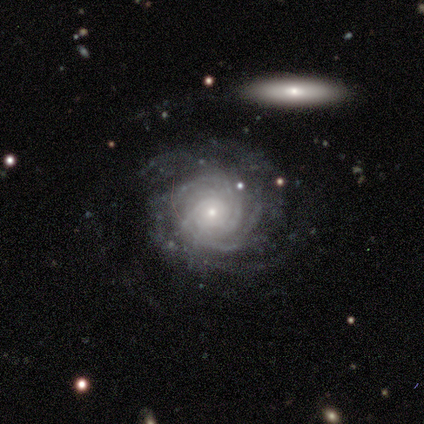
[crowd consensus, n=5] Overall: featured or disk (80%). Edge-on disk: no (100%). Bar: no (75%). Spiral arms: yes (100%). Spiral arm count: can't tell (75%). Spiral winding: tight (75%). Bulge size: small (100%). Merging: none (80%).